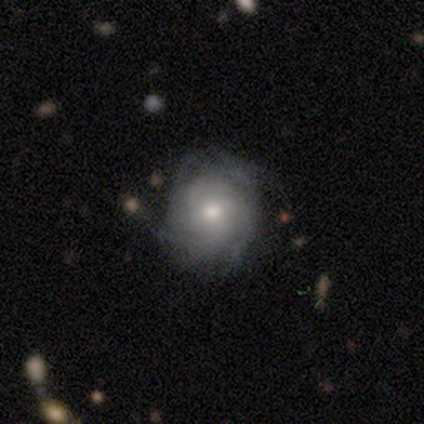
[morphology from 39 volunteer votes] type=featured or disk (74%); edge-on=no (100%); bar=no (83%); spiral arms=yes (97%); winding=tight (71%); arm count=can't tell (61%); bulge=moderate (55%); merging=none (72%).